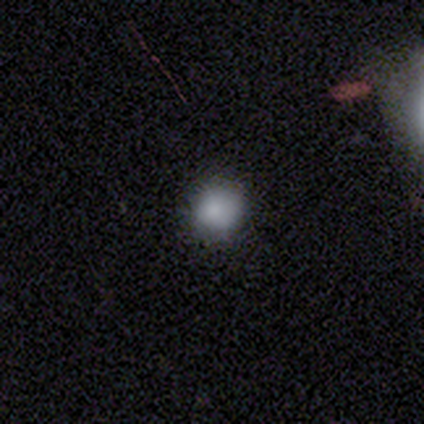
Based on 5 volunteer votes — smooth 80%, star or artifact 20%, featured or disk 0%. Down the decision tree: how rounded — round (100%); merging — none (100%).